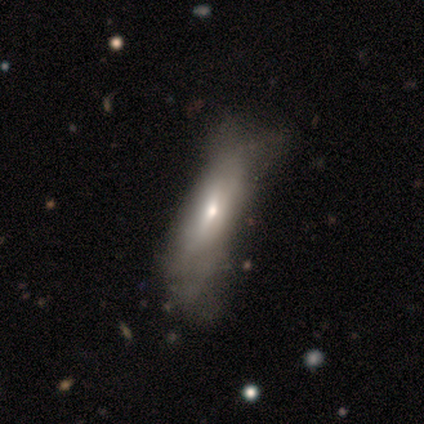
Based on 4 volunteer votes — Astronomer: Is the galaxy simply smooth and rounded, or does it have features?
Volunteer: smooth — 50%, tied with featured or disk at 50%.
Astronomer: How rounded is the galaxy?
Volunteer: in between — 50%, tied with cigar-shaped at 50%.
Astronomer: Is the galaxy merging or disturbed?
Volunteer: none — 75%.